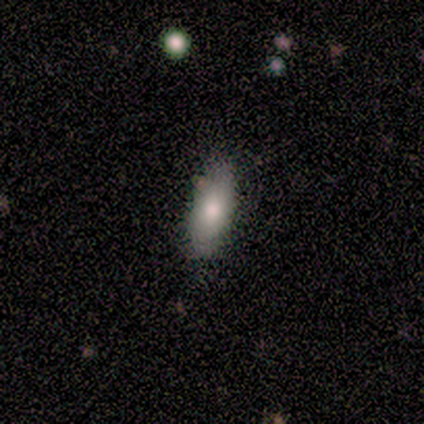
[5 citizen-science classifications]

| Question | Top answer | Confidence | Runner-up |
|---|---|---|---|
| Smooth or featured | smooth | 80% | featured or disk (20%) |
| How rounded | in between | 100% | — |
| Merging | none | 100% | — |